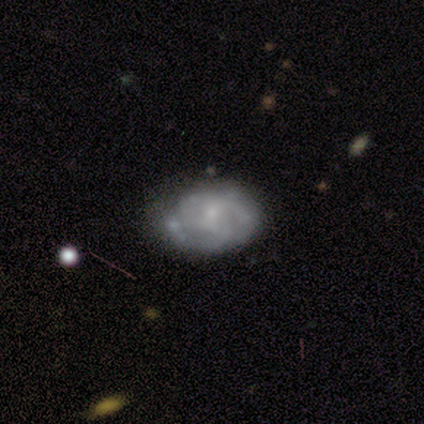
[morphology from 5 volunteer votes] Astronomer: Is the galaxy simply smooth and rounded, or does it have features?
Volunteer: featured or disk — 80%.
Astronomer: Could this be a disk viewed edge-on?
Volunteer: no — 100%.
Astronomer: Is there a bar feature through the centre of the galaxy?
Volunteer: no — 75%.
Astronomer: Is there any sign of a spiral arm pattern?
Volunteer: yes — 75%.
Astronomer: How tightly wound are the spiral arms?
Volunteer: tight — 100%.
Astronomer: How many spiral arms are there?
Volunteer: can't tell — 100%.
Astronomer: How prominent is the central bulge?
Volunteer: small — 50%.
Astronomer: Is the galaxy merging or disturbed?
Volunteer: none — 50%.